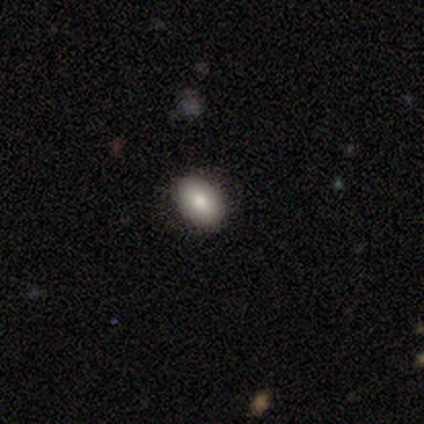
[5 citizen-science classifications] Volunteers were most divided on "smooth or featured" (2-way tie): smooth: 40%, featured or disk: 40%, star or artifact: 20%. More confident: how rounded — in between (100%); merging — none (100%).